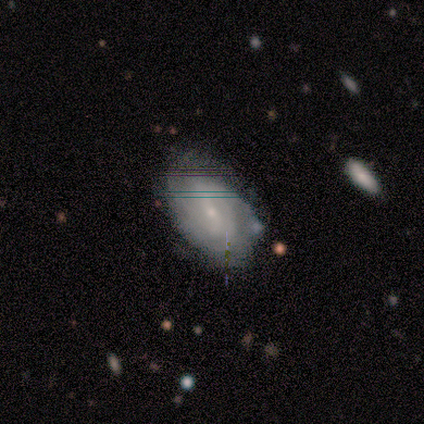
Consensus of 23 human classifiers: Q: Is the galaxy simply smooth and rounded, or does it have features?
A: featured or disk — 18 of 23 (78%).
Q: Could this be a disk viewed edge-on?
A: no — 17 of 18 (94%).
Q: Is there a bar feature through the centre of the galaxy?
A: no — 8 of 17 (47%).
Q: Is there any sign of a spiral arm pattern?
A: yes — 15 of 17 (88%).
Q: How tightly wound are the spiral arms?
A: tight — 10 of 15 (67%).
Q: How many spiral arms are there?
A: can't tell — 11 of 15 (73%).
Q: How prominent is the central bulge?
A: small — 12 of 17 (71%).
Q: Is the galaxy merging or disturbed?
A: none — 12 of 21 (57%).